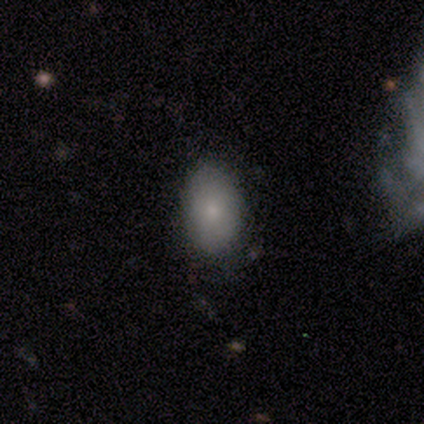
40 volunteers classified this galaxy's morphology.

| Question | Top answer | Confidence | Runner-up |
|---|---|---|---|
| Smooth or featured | smooth | 82% | star or artifact (10%) |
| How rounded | in between | 91% | round (9%) |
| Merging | none | 86% | minor disturbance (11%) |